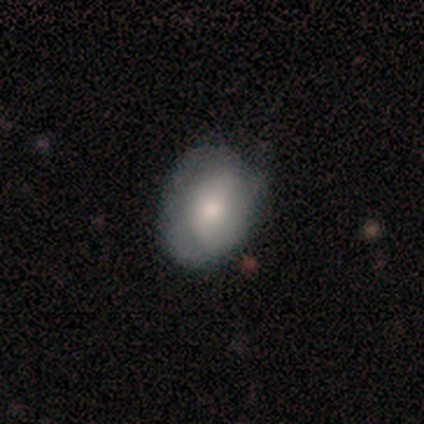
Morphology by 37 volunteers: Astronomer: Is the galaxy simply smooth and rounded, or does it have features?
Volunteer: smooth — 68%.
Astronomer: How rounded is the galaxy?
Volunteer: in between — 56% (runner-up: round, 40%).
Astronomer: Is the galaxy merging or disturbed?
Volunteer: none — 53% (runner-up: minor disturbance, 42%).